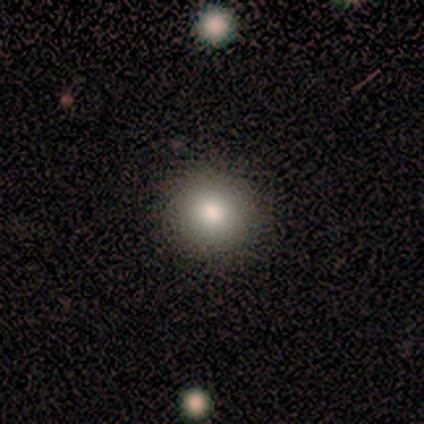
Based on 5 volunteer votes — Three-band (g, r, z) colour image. It shows a smooth galaxy with no disk features (100%) that is round (100%). Merging: none (100%).